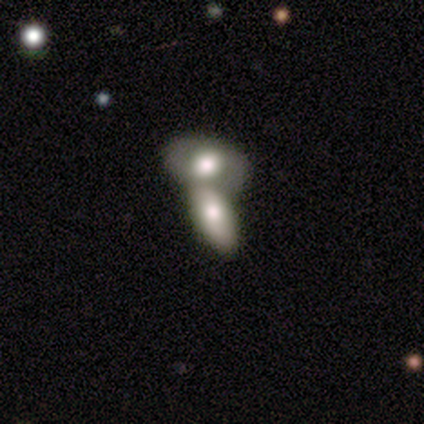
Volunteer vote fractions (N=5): A smooth galaxy with no disk features (60%) that is in between round and cigar-shaped (100%).

Vote fractions:
- Smooth or featured? smooth: 60% / featured or disk: 40% / star or artifact: 0%
- How rounded? in between: 100% / round: 0% / cigar-shaped: 0%
- Merging? merger: 100% / none: 0% / minor disturbance: 0% / major disturbance: 0%